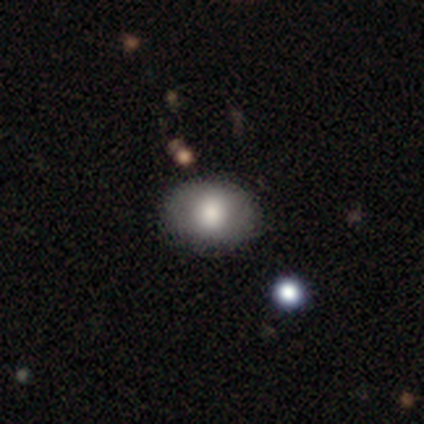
smooth 80%, star or artifact 20%, featured or disk 0%. Down the decision tree: how rounded — round (50%, tied with in between); merging — none (75%).